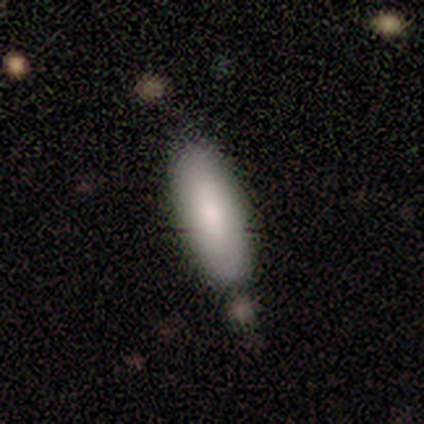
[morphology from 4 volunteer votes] Smooth or featured?
  - smooth: 100% *
  - featured or disk: 0%
  - star or artifact: 0%
How rounded?
  - in between: 75% *
  - round: 25%
  - cigar-shaped: 0%
Merging?
  - none: 100% *
  - minor disturbance: 0%
  - major disturbance: 0%
  - merger: 0%